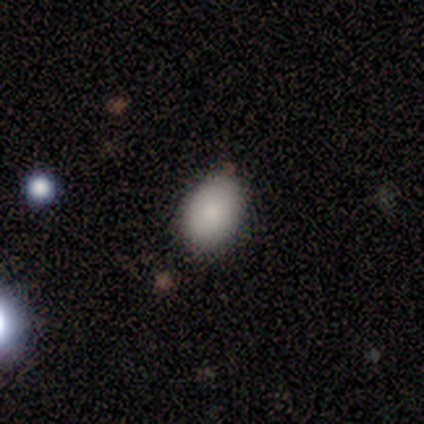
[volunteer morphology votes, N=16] A smooth galaxy with no disk features (81%) that is in between round and cigar-shaped (85%).

Vote fractions:
- Smooth or featured? smooth: 81% / star or artifact: 12% / featured or disk: 6%
- How rounded? in between: 85% / round: 15% / cigar-shaped: 0%
- Merging? none: 93% / minor disturbance: 7% / major disturbance: 0% / merger: 0%